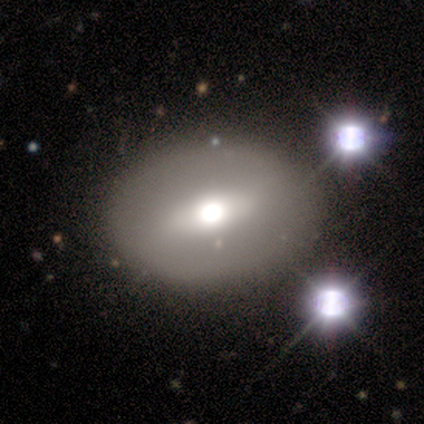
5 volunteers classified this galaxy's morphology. smooth_or_featured: featured or disk (p=0.80) [alt: smooth p=0.20]
disk_edge_on: no (p=0.75) [alt: yes p=0.25]
bar: no (p=0.67) [alt: weak p=0.33]
has_spiral_arms: no (p=1.00)
bulge_size: dominant (p=0.33) [tied with: large p=0.33, moderate p=0.33]
merging: none (p=1.00)